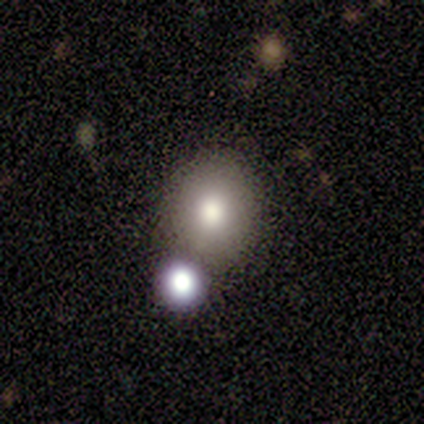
A smooth galaxy with no disk features (75%) that is round (100%). Merging: none (67%).